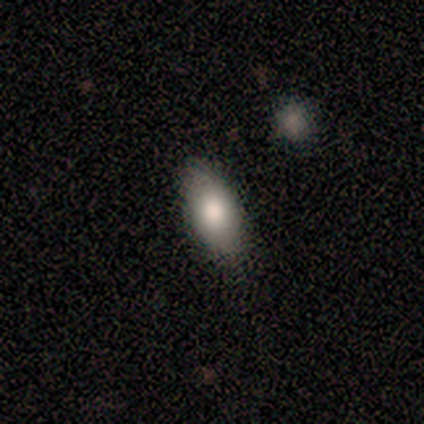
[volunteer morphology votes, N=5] Q: Smooth or featured?
A: smooth (80%); runner-up: featured or disk (20%)
Q: How rounded?
A: in between (100%)
Q: Merging?
A: none (80%); runner-up: minor disturbance (20%)